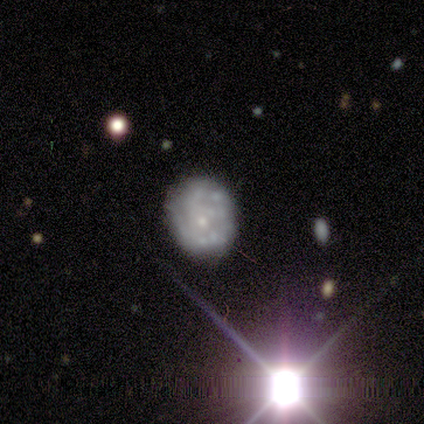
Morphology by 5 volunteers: Q: Smooth or featured?
A: featured or disk (80%); runner-up: smooth (20%)
Q: Edge-on disk?
A: no (100%)
Q: Bar?
A: no (75%); runner-up: weak (25%)
Q: Spiral arms?
A: no (75%); runner-up: yes (25%)
Q: Bulge size?
A: small (100%)
Q: Merging?
A: none (80%); runner-up: minor disturbance (20%)